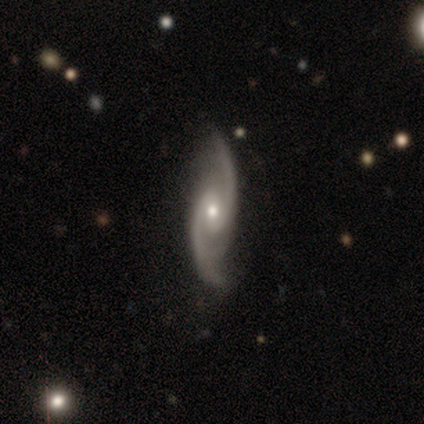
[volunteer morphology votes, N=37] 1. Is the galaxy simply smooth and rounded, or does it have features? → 95% featured or disk, 3% smooth, 3% star or artifact.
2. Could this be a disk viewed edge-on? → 91% no, 9% yes.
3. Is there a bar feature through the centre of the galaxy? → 59% weak, 31% no, 9% strong.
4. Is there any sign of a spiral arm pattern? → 97% yes, 3% no.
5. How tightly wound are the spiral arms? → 58% loose, 32% medium, 10% tight.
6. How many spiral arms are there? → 87% 2, 10% 3, 3% 4, 0% 1, 0% more than 4, 0% can't tell.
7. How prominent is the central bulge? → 50% small, 47% moderate, 3% dominant, 0% large, 0% none.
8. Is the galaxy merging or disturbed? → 86% none, 8% minor disturbance, 6% major disturbance, 0% merger.